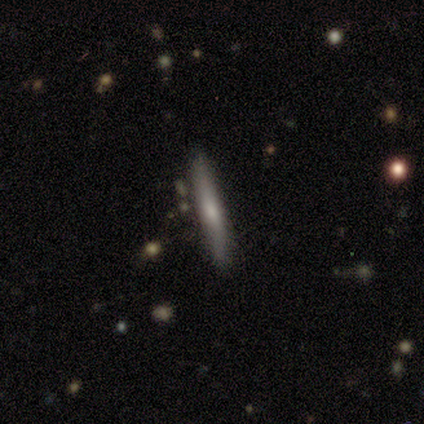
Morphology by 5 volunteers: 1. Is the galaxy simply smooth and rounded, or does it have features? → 60% featured or disk, 40% smooth, 0% star or artifact.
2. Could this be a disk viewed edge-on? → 100% yes, 0% no.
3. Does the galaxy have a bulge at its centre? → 67% rounded, 33% none, 0% boxy.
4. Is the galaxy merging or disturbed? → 100% none, 0% minor disturbance, 0% major disturbance, 0% merger.